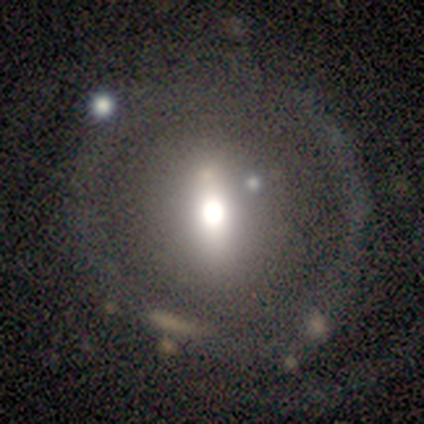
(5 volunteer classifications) smooth-or-featured: featured or disk: 100% | smooth: 0% | star or artifact: 0%
  disk-edge-on: no: 100% | yes: 0%
    bar: no: 60% | strong: 20% | weak: 20%
    has-spiral-arms: no: 100% | yes: 0%
    bulge-size: moderate: 60% | dominant: 20% | small: 20% | large: 0% | none: 0%
  merging: none: 40% (tied) | minor disturbance: 40% (tied) | major disturbance: 20% | merger: 0%